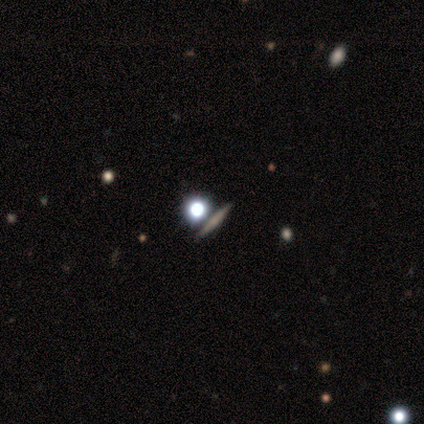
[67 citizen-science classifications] A smooth galaxy with no disk features (46%) that is cigar-shaped (52%). Merging: none (85%).